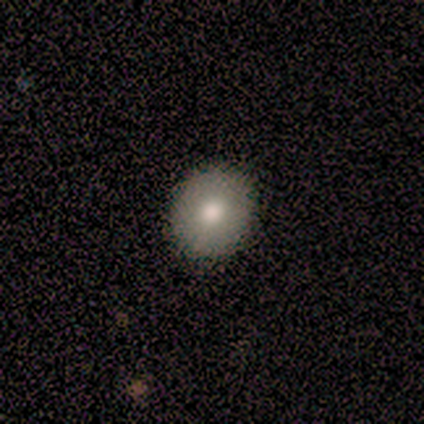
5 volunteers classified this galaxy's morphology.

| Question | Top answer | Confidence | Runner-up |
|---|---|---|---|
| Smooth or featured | smooth | 80% | featured or disk (20%) |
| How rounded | round | 75% | in between (25%) |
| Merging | none | 80% | minor disturbance (20%) |